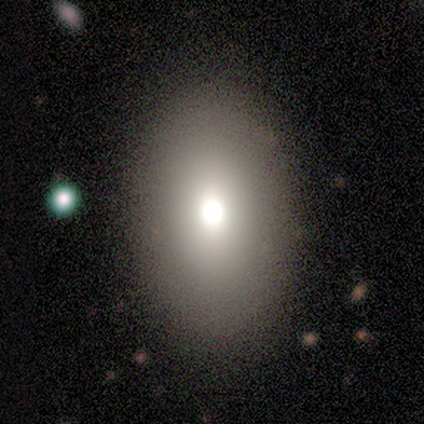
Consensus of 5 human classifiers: Smooth or featured? 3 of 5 (60%) said smooth. How rounded? 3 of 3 (100%) said in between. Merging? 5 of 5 (100%) said none.